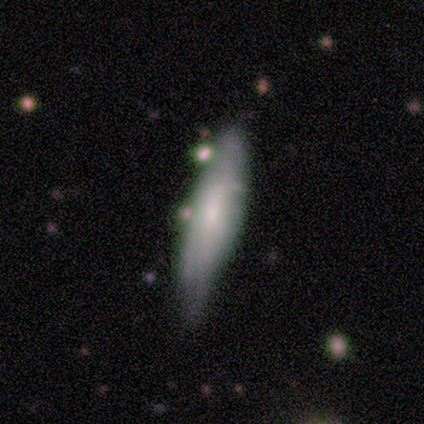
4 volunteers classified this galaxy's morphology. Overall: smooth (100%). How rounded: in between (50%, tied with cigar-shaped). Merging: minor disturbance (50%; none 25%).